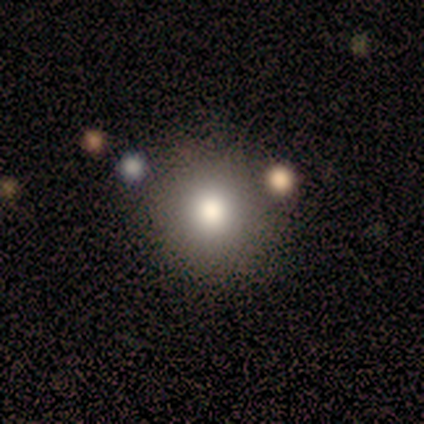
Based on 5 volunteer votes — A smooth galaxy with no disk features (60%) that is round (100%). Merging: none (80%).